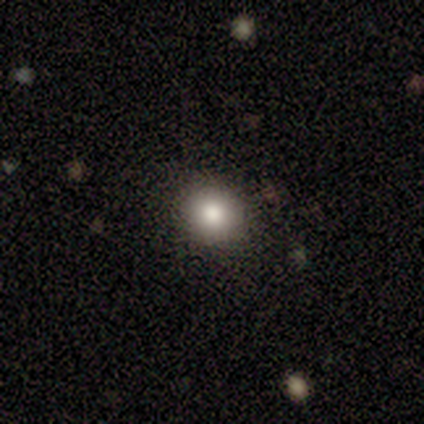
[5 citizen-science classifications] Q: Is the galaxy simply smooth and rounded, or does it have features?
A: smooth — 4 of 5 (80%).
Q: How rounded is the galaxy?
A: round — 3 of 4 (75%).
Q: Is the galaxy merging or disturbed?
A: none — 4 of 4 (100%).